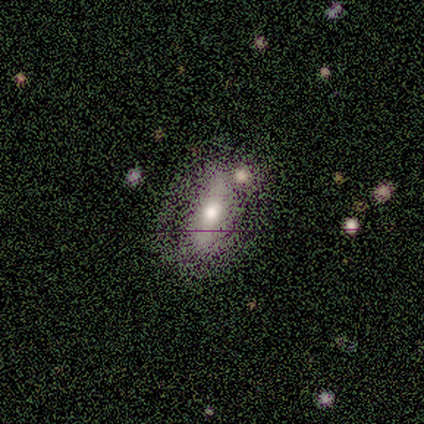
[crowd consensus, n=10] Overall: smooth (50%, tied with featured or disk). How rounded: in between (80%). Merging: none (60%; major disturbance 20%).